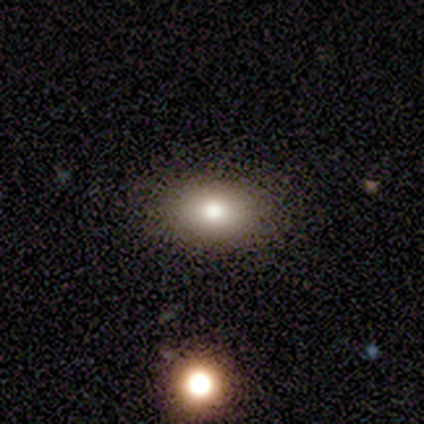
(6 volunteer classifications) Overall: smooth (50%; star or artifact 33%). How rounded: in between (100%). Merging: none (100%).